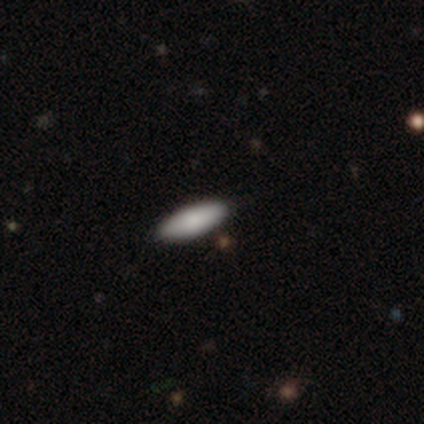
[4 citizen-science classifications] This appears to be a smooth galaxy with no disk features (75%) that is in between round and cigar-shaped (67%). Merging: none (75%).